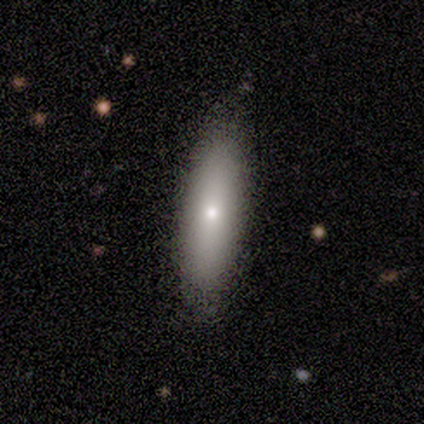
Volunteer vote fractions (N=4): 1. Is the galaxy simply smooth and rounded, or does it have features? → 75% smooth, 25% featured or disk, 0% star or artifact.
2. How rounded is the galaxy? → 67% in between, 33% cigar-shaped, 0% round.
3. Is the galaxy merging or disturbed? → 100% none, 0% minor disturbance, 0% major disturbance, 0% merger.